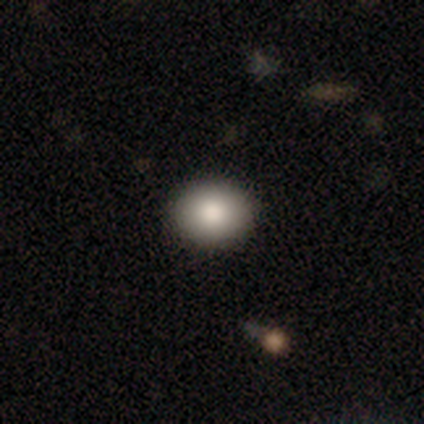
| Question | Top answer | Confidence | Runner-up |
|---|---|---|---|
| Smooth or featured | smooth | 90% | star or artifact (8%) |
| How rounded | round | 75% | in between (25%) |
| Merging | none | 95% | minor disturbance (5%) |